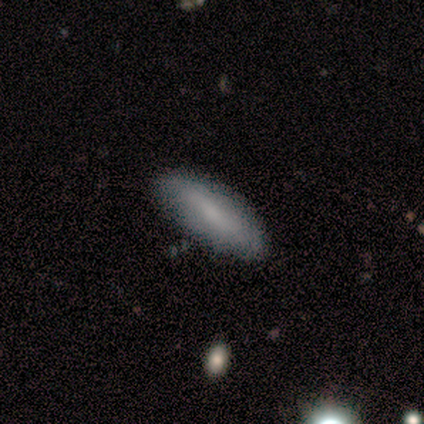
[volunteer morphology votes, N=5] Smooth or featured?
  - smooth: 100% *
  - featured or disk: 0%
  - star or artifact: 0%
How rounded?
  - cigar-shaped: 60% *
  - in between: 40%
  - round: 0%
Merging?
  - none: 100% *
  - minor disturbance: 0%
  - major disturbance: 0%
  - merger: 0%